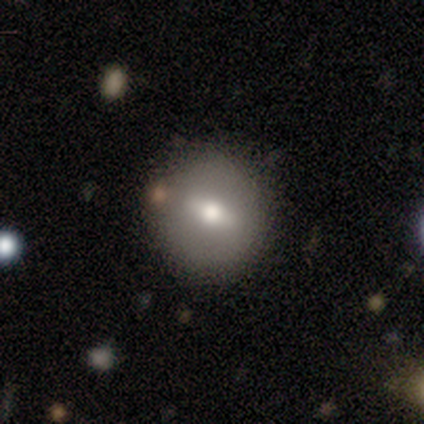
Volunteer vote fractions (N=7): smooth 57%, featured or disk 43%, star or artifact 0%. Down the decision tree: how rounded — round (100%); merging — none (100%).